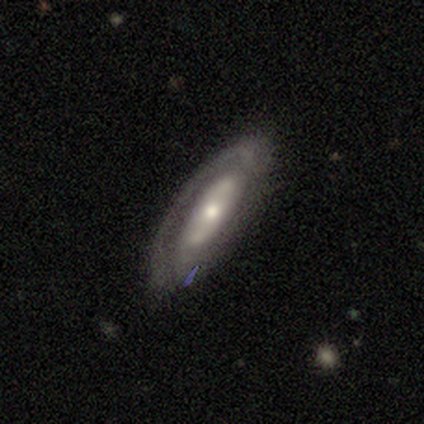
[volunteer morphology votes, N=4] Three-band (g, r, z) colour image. It shows a featured or disk galaxy (75%) with no bar (67%), 1 (100%) tight (100%) spiral arms (67%) and a moderate central bulge (67%). Merging: none (25%, tied with minor disturbance, major disturbance and merger).